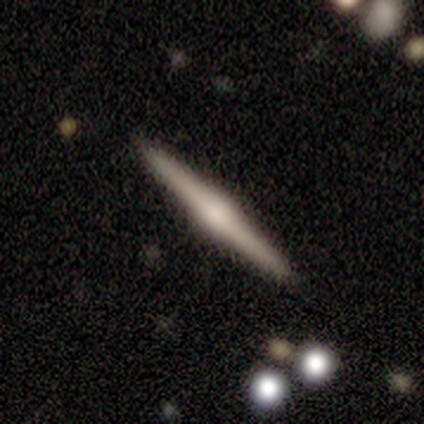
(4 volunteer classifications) Q: Smooth or featured?
A: featured or disk (100%)
Q: Edge-on disk?
A: yes (100%)
Q: Edge-on bulge?
A: rounded (75%); runner-up: boxy (25%)
Q: Merging?
A: none (100%)